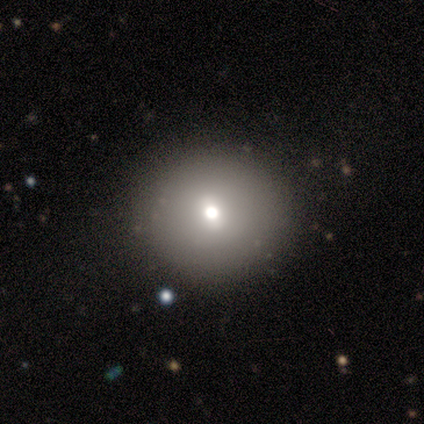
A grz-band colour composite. It shows a smooth galaxy with no disk features (60%) that is round (67%). Merging: none (50%).